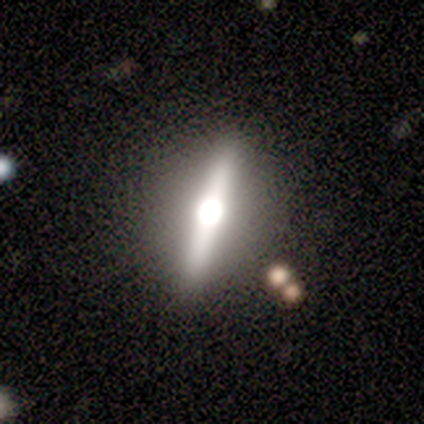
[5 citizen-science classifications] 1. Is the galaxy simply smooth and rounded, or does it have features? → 100% featured or disk, 0% smooth, 0% star or artifact.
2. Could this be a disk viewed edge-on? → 100% yes, 0% no.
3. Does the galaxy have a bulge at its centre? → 100% rounded, 0% boxy, 0% none.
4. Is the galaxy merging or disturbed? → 100% none, 0% minor disturbance, 0% major disturbance, 0% merger.